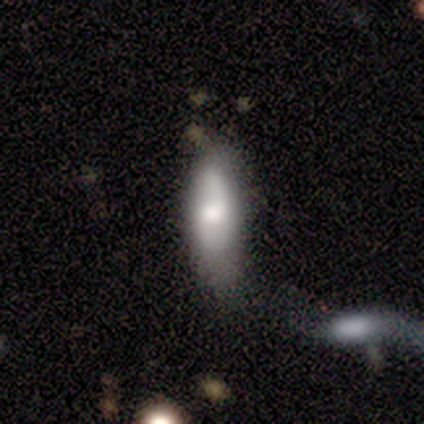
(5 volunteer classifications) Smooth or featured: featured or disk — 80% (smooth — 20%)
Edge-on disk: no — 75% (yes — 25%)
Bar: no — 67% (weak — 33%)
Spiral arms: yes — 67% (no — 33%)
Spiral winding: medium — 50% (tied with loose — 50%)
Spiral arm count: 2 — 50% (tied with can't tell — 50%)
Bulge size: moderate — 67% (large — 33%)
Merging: merger — 60% (none — 20%)